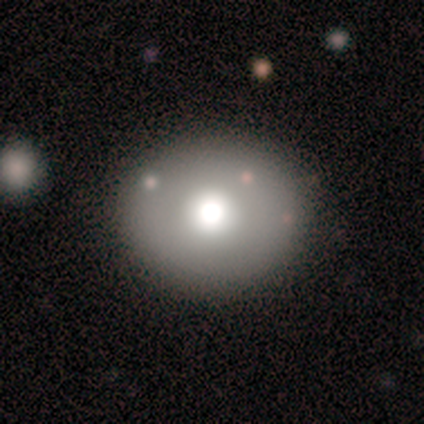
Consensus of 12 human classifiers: smooth-or-featured: smooth: 75% | featured or disk: 17% | star or artifact: 8%
  how-rounded: round: 78% | in between: 22% | cigar-shaped: 0%
  merging: none: 91% | minor disturbance: 9% | major disturbance: 0% | merger: 0%